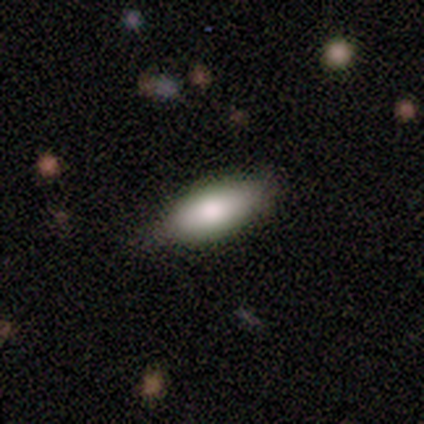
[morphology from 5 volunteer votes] smooth_or_featured: smooth (p=1.00)
how_rounded: in between (p=0.60) [alt: cigar-shaped p=0.40]
merging: none (p=1.00)